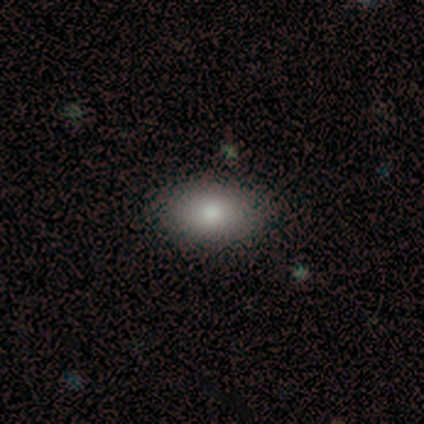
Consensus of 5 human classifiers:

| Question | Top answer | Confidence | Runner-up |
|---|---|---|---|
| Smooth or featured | smooth | 80% | featured or disk (20%) |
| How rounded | in between | 75% | round (25%) |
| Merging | none | 80% | minor disturbance (20%) |